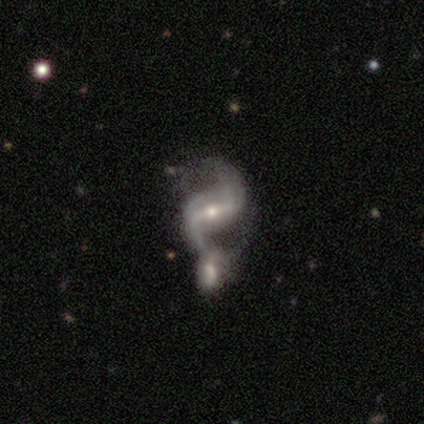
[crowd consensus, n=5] This is clearly a featured or disk galaxy (100%). It is clearly not viewed edge-on (100%). Bar: likely weak (60%). Spiral arm pattern: clearly yes (100%). Spiral arm count: clearly 2 (100%). Spiral winding: likely medium (60%). Central bulge: clearly small (100%). Merging: clearly merger (80%).